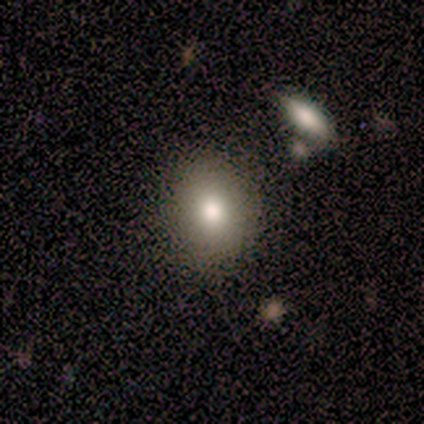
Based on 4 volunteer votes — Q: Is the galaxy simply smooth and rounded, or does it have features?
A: smooth — 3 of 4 (75%).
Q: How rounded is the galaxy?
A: in between — 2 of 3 (67%).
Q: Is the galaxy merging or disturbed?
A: none — 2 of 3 (67%).